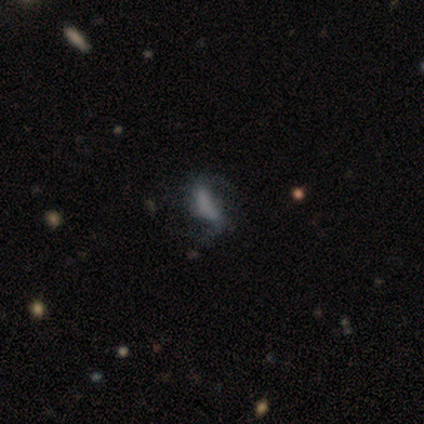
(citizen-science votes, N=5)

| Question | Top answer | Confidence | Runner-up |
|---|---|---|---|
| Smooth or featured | featured or disk | 80% | smooth (20%) |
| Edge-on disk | no | 100% | — |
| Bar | strong | 75% | weak (25%) |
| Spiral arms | yes | 100% | — |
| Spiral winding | loose | 75% | medium (25%) |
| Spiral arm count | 2 | 100% | — |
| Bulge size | none | 50% | large (25%) |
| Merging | major disturbance | 40% | none (20%) |